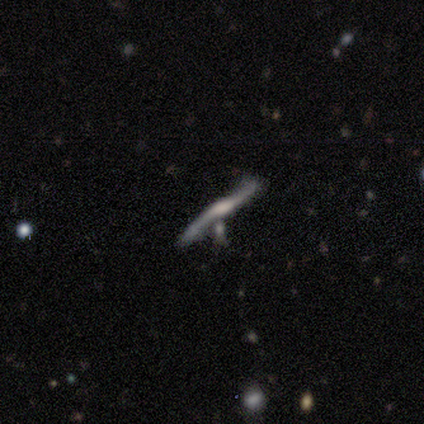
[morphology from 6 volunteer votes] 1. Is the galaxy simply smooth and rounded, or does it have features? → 83% featured or disk, 17% smooth, 0% star or artifact.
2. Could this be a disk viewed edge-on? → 60% yes, 40% no.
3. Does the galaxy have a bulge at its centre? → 67% rounded, 33% boxy, 0% none.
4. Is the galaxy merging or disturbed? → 83% merger, 17% none, 0% minor disturbance, 0% major disturbance.